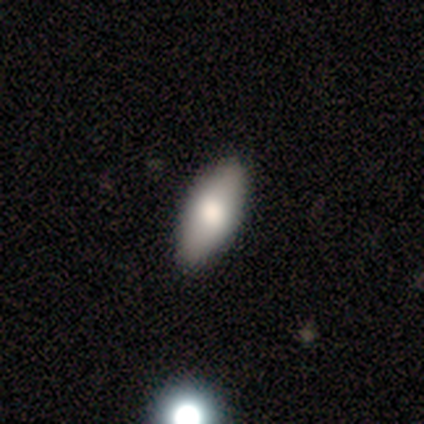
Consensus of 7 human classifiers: This is clearly a smooth galaxy (86%). How rounded: likely in between (67%). Merging: clearly none (100%).